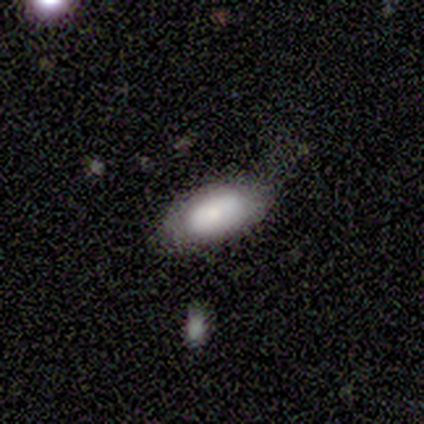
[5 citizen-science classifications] Smooth or featured?
  - smooth: 100% *
  - featured or disk: 0%
  - star or artifact: 0%
How rounded?
  - in between: 100% *
  - round: 0%
  - cigar-shaped: 0%
Merging?
  - none: 60% *
  - minor disturbance: 40%
  - major disturbance: 0%
  - merger: 0%